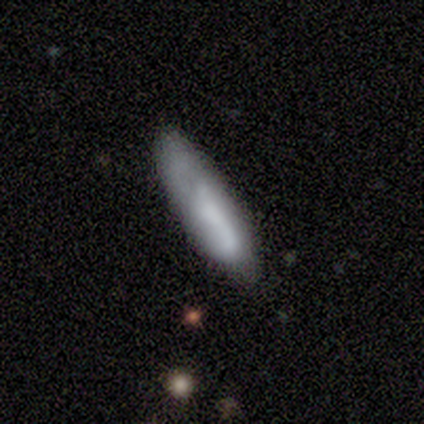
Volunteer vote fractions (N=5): This appears to be a star or artifact, not a galaxy (60%).